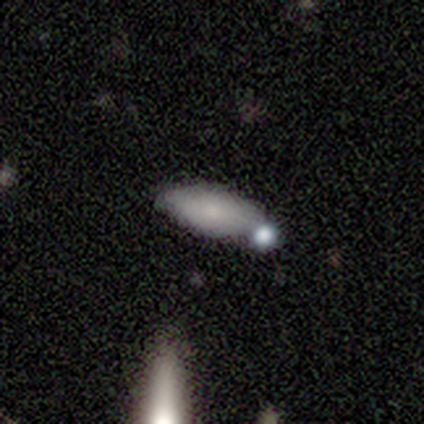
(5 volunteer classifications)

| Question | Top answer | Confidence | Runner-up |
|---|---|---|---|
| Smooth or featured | smooth | 100% | — |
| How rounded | in between | 100% | — |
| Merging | none | 60% | merger (40%) |